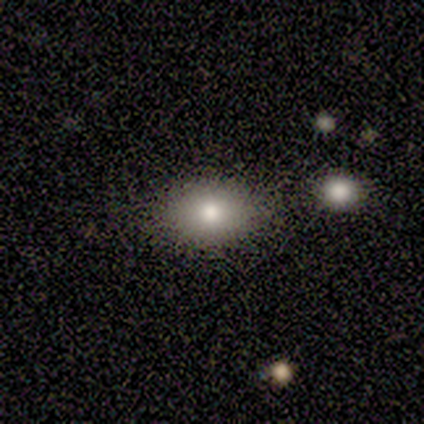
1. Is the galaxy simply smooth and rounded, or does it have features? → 50% smooth, 25% featured or disk, 25% star or artifact.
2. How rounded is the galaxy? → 100% in between, 0% round, 0% cigar-shaped.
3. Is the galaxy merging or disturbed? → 100% none, 0% minor disturbance, 0% major disturbance, 0% merger.